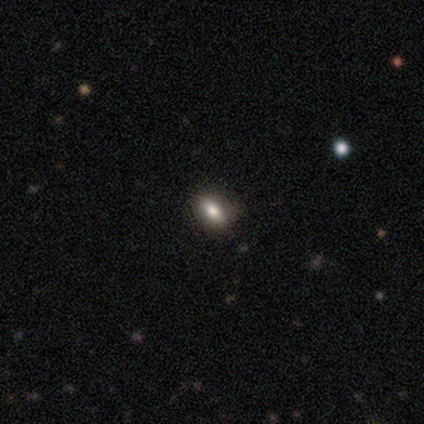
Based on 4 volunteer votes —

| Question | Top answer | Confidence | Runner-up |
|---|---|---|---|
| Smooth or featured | smooth | 75% | featured or disk (25%) |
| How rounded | in between | 67% | cigar-shaped (33%) |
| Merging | none | 100% | — |